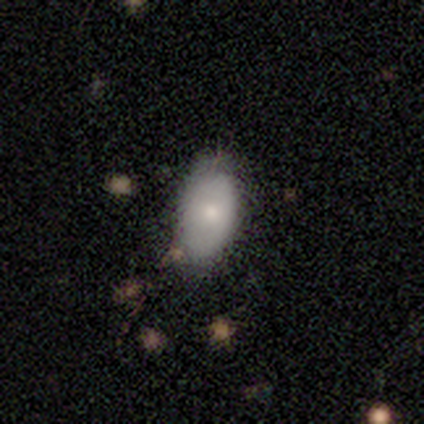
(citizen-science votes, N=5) A smooth galaxy with no disk features (100%) that is in between round and cigar-shaped (80%). Merging: none (80%).